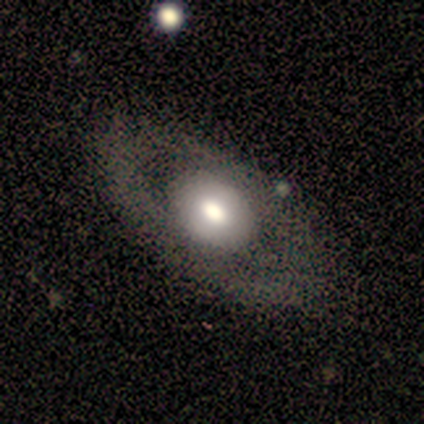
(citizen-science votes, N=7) This is possibly a featured or disk galaxy (57%). It is likely not viewed edge-on (75%). Bar: likely no (67%). Spiral arm pattern: likely yes (67%). Spiral arm count: possibly 2 (50%, tied with can't tell). Spiral winding: clearly loose (100%). Central bulge: likely moderate (67%). Merging: clearly none (100%).